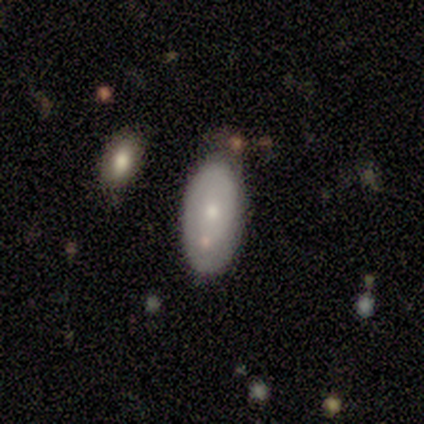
Smooth or featured?
  - featured or disk: 50% *
  - smooth: 43%
  - star or artifact: 7%
Edge-on disk?
  - no: 100% *
  - yes: 0%
Bar?
  - no: 100% *
  - strong: 0%
  - weak: 0%
Spiral arms?
  - no: 57% *
  - yes: 43%
Bulge size?
  - small: 57% *
  - moderate: 43%
  - dominant: 0%
  - large: 0%
  - none: 0%
Merging?
  - none: 62% *
  - minor disturbance: 31%
  - merger: 8%
  - major disturbance: 0%